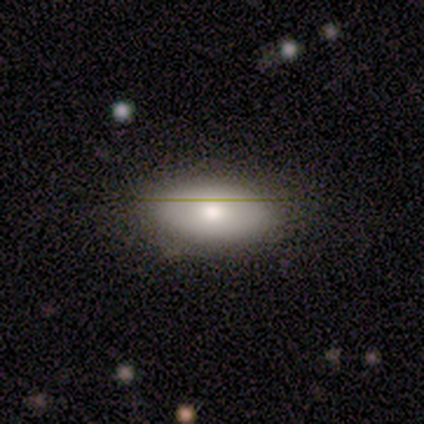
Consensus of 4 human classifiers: Morphology: type=smooth (75%); roundness=in between (100%); merging=none (100%).